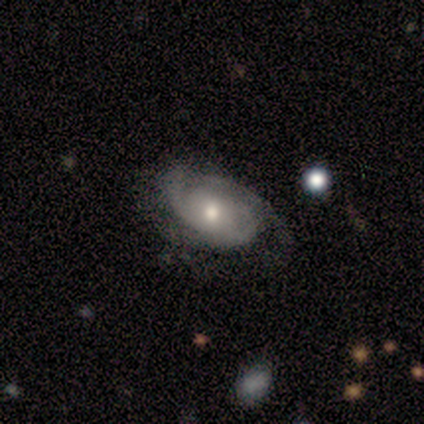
This is likely a featured or disk galaxy (79%). It is clearly not viewed edge-on (100%). Bar: likely no (68%). Spiral arm pattern: clearly yes (90%). Spiral arm count: possibly 2 (46%). Spiral winding: marginally tight (43%). Central bulge: possibly moderate (58%). Merging: likely none (78%).